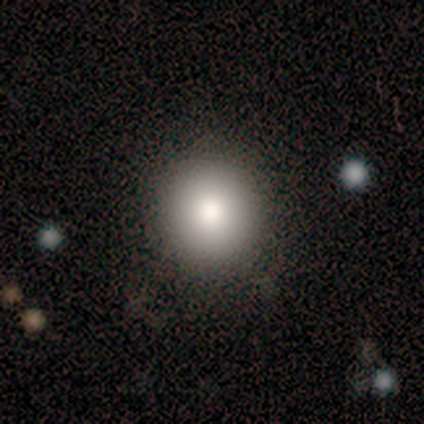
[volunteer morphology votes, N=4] smooth 75%, featured or disk 25%, star or artifact 0%. Down the decision tree: how rounded — round (100%); merging — none (100%).